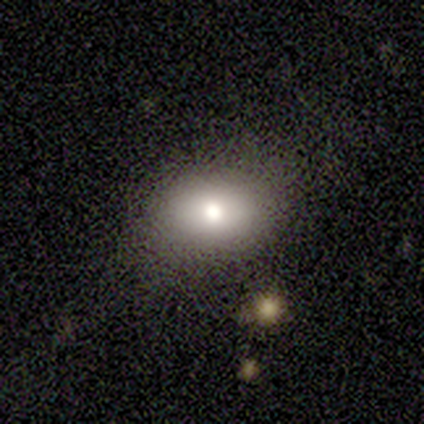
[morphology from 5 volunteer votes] This appears to be a smooth galaxy with no disk features (80%) that is round (50%, tied with in between). Merging: none (100%).